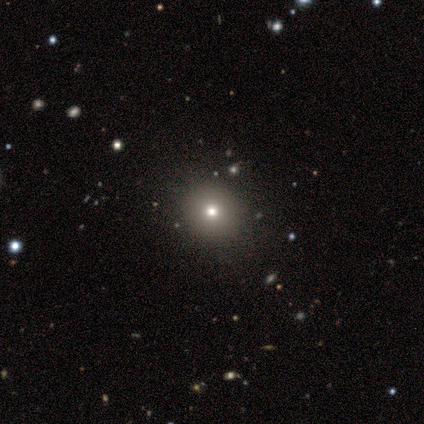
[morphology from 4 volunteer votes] smooth-or-featured: smooth: 100% | featured or disk: 0% | star or artifact: 0%
  how-rounded: round: 100% | in between: 0% | cigar-shaped: 0%
  merging: none: 100% | minor disturbance: 0% | major disturbance: 0% | merger: 0%